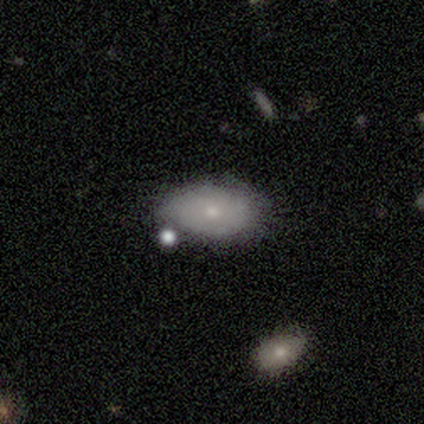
smooth 67%, featured or disk 23%, star or artifact 10%. Down the decision tree: how rounded — in between (89%); merging — none (69%).